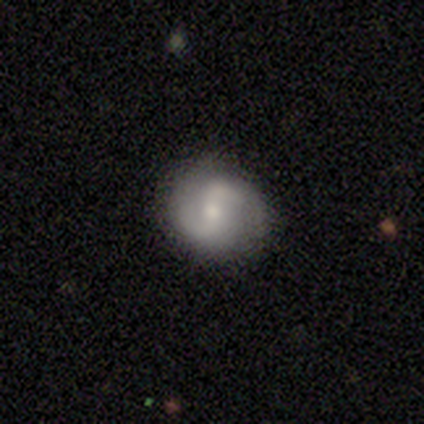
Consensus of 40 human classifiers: Morphology: type=featured or disk (72%); edge-on=no (97%); bar=weak (46%); spiral arms=yes (89%); winding=medium (48%); arm count=2 (96%); bulge=small (50%); merging=none (89%).